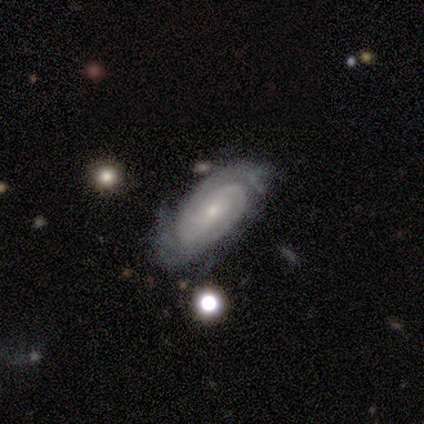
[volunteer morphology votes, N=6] Smooth or featured?
  - featured or disk: 100% *
  - smooth: 0%
  - star or artifact: 0%
Edge-on disk?
  - no: 83% *
  - yes: 17%
Bar?
  - no: 100% *
  - strong: 0%
  - weak: 0%
Spiral arms?
  - yes: 100% *
  - no: 0%
Spiral winding?
  - tight: 100% *
  - medium: 0%
  - loose: 0%
Spiral arm count?
  - 2: 60% *
  - 3: 20%
  - can't tell: 20%
  - 1: 0%
  - 4: 0%
  - more than 4: 0%
Bulge size?
  - small: 100% *
  - dominant: 0%
  - large: 0%
  - moderate: 0%
  - none: 0%
Merging?
  - none: 67% *
  - minor disturbance: 33%
  - major disturbance: 0%
  - merger: 0%